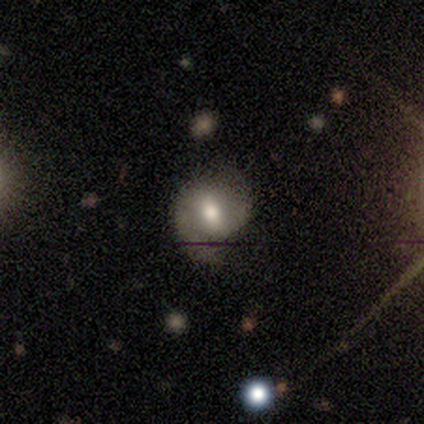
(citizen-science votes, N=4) Overall: smooth (75%). How rounded: in between (67%; round 33%). Merging: none (75%).